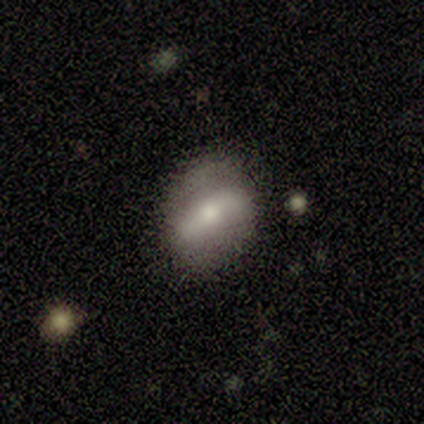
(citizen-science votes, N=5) Morphology: type=featured or disk (80%); edge-on=no (75%); bar=strong (67%); spiral arms=no (67%); bulge=large (33%, tied with moderate and small); merging=none (60%).